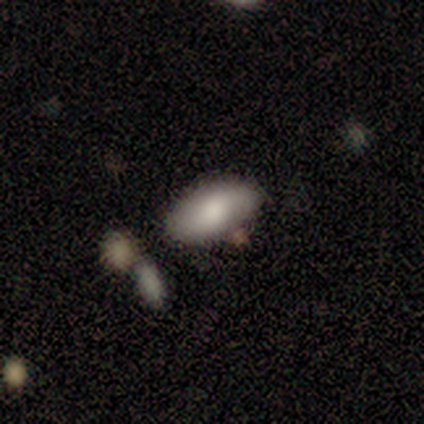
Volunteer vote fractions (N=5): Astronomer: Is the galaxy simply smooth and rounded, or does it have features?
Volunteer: smooth — 80%.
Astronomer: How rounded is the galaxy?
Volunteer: in between — 100%.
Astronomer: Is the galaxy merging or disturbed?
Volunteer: none — 60%.